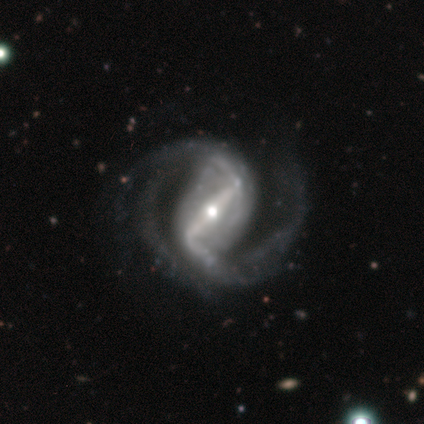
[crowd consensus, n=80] Smooth or featured? 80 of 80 (100%) said featured or disk. Edge-on disk? 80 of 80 (100%) said no. Bar? 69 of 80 (86%) said strong. Spiral arms? 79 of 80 (99%) said yes. Spiral winding? 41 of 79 (52%) said medium. Spiral arm count? 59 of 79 (75%) said 2. Bulge size? 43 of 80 (54%) said moderate. Merging? 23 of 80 (29%) said none.